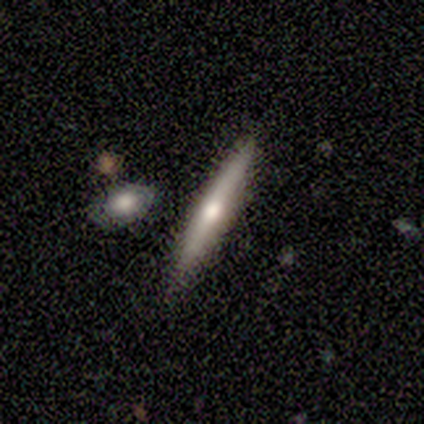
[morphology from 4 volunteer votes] Q: Smooth or featured?
A: smooth (50%); tied with: featured or disk (50%)
Q: How rounded?
A: cigar-shaped (100%)
Q: Merging?
A: none (75%); runner-up: minor disturbance (25%)